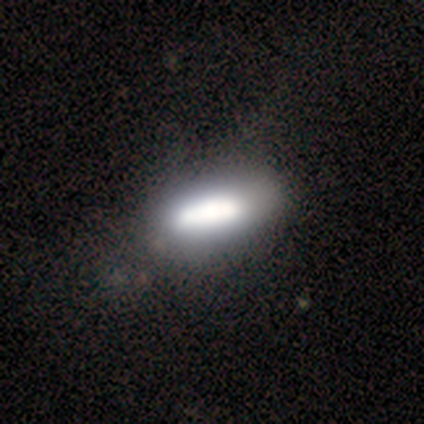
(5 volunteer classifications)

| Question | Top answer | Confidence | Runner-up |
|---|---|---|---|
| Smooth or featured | smooth | 100% | — |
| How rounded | in between | 60% | cigar-shaped (40%) |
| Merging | none | 80% | minor disturbance (20%) |